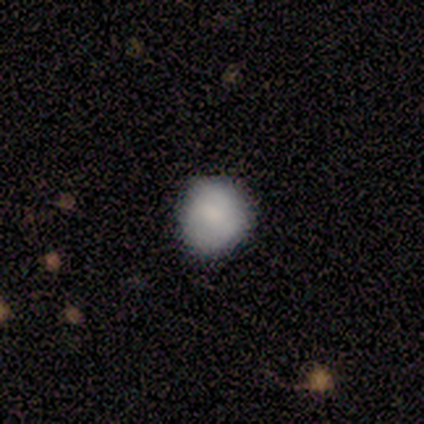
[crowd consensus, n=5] smooth-or-featured: smooth: 100% | featured or disk: 0% | star or artifact: 0%
  how-rounded: round: 100% | in between: 0% | cigar-shaped: 0%
  merging: none: 100% | minor disturbance: 0% | major disturbance: 0% | merger: 0%